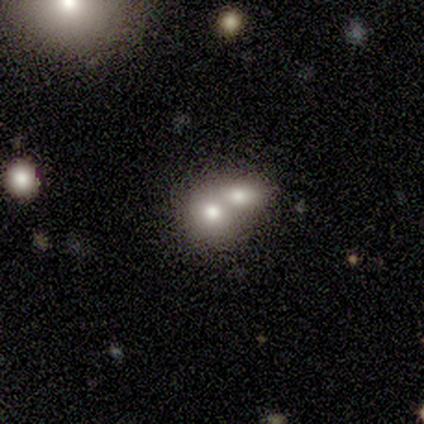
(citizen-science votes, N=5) Overall: smooth (60%; featured or disk 20%). How rounded: round (67%; in between 33%). Merging: merger (100%).